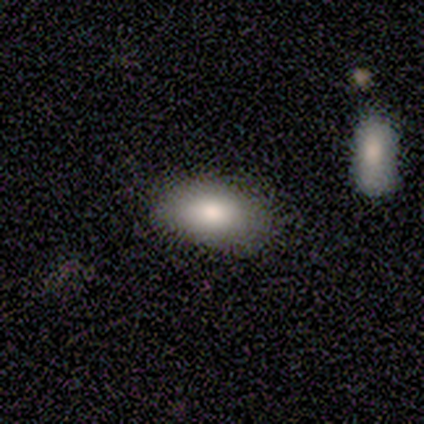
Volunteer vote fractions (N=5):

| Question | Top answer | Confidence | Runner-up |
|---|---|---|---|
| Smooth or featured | smooth | 100% | — |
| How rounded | in between | 100% | — |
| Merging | none | 80% | major disturbance (20%) |